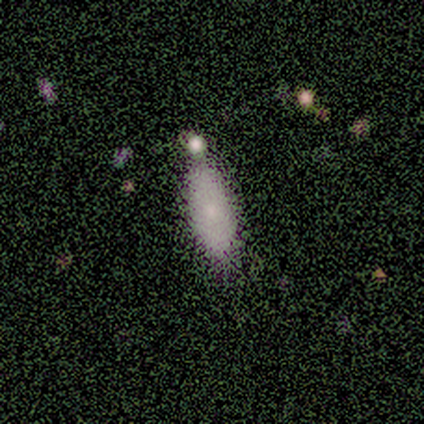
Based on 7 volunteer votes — Morphology: type=smooth (43%); roundness=in between (100%); merging=none (80%).